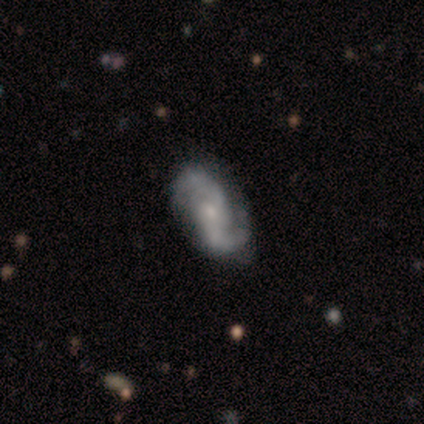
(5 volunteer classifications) Smooth or featured? 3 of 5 (60%) said featured or disk. Edge-on disk? 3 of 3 (100%) said no. Bar? 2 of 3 (67%) said weak. Spiral arms? 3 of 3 (100%) said yes. Spiral winding? 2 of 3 (67%) said loose. Spiral arm count? 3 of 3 (100%) said 2. Bulge size? 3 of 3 (100%) said small. Merging? 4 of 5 (80%) said none.